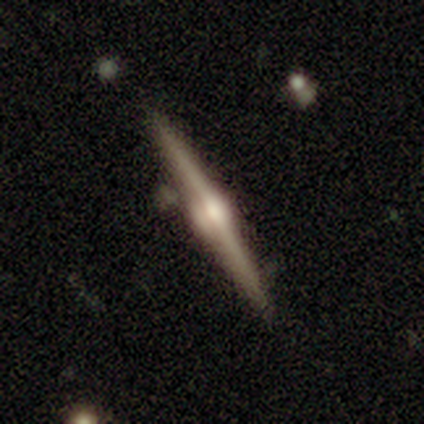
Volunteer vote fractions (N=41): Smooth or featured?
  - featured or disk: 88% *
  - star or artifact: 7%
  - smooth: 5%
Edge-on disk?
  - yes: 97% *
  - no: 3%
Edge-on bulge?
  - rounded: 86% *
  - boxy: 11%
  - none: 3%
Merging?
  - none: 82% *
  - minor disturbance: 16%
  - merger: 3%
  - major disturbance: 0%